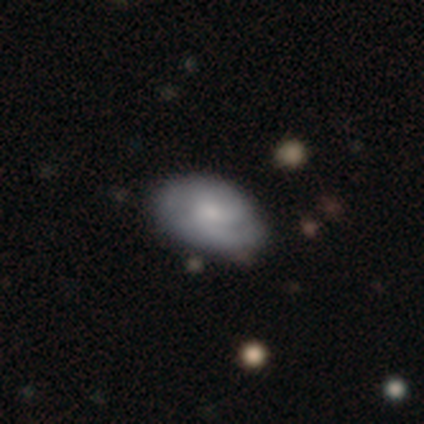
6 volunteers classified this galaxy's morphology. A featured or disk galaxy (67%) with no bar (75%), 2 (67%) tight (67%) spiral arms (75%) and a small central bulge (75%). Merging: none (83%).